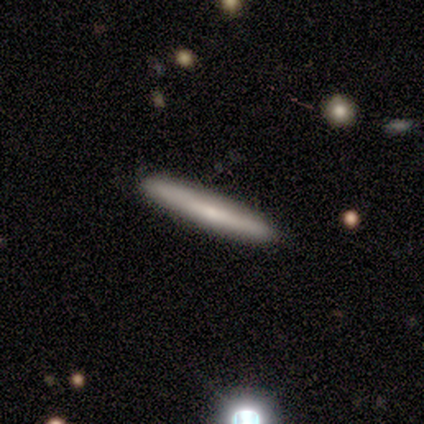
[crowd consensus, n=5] A smooth galaxy with no disk features (60%) that is cigar-shaped (100%).

Vote fractions:
- Smooth or featured? smooth: 60% / star or artifact: 40% / featured or disk: 0%
- How rounded? cigar-shaped: 100% / round: 0% / in between: 0%
- Merging? none: 100% / minor disturbance: 0% / major disturbance: 0% / merger: 0%